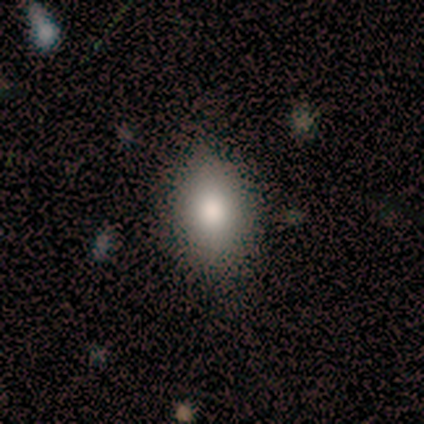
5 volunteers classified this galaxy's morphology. type=smooth (60%); roundness=in between (100%); merging=none (75%).